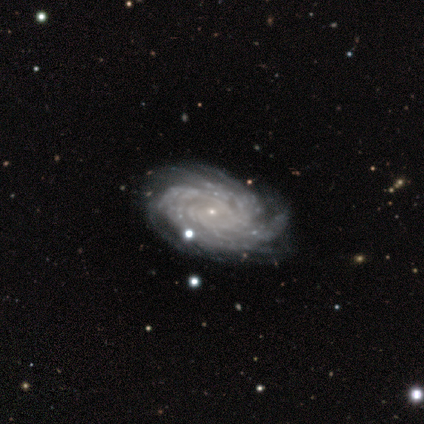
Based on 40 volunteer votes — Q: Smooth or featured?
A: featured or disk (100%)
Q: Edge-on disk?
A: no (100%)
Q: Bar?
A: no (68%); runner-up: weak (28%)
Q: Spiral arms?
A: yes (100%)
Q: Spiral winding?
A: tight (90%); runner-up: medium (10%)
Q: Spiral arm count?
A: more than 4 (45%); runner-up: can't tell (32%)
Q: Bulge size?
A: small (92%); runner-up: large (2%)
Q: Merging?
A: none (60%); runner-up: minor disturbance (8%)